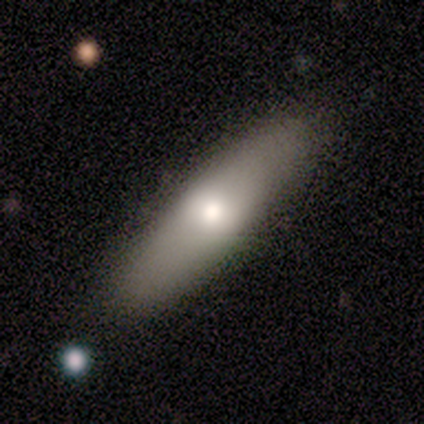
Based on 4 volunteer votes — smooth 100%, featured or disk 0%, star or artifact 0%. Down the decision tree: how rounded — in between (50%, tied with cigar-shaped); merging — none (75%).